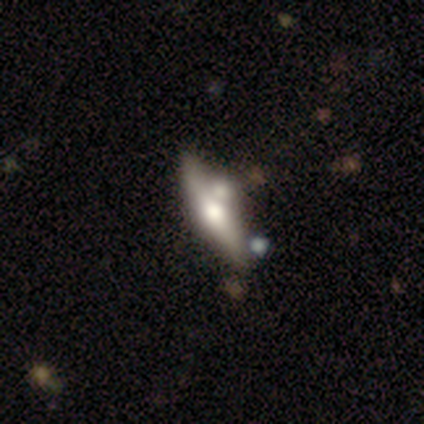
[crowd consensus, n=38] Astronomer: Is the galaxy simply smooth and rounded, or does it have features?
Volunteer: featured or disk — 61%.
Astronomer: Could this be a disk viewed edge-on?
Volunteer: yes — 87%.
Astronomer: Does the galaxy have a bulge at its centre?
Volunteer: rounded — 90%.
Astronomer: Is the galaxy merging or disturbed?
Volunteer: none — 54% (runner-up: merger, 34%).